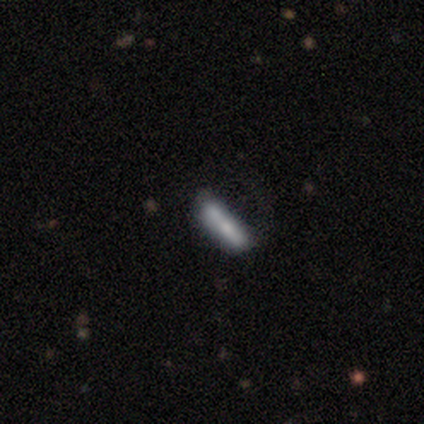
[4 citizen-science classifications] smooth-or-featured: smooth: 100% | featured or disk: 0% | star or artifact: 0%
  how-rounded: cigar-shaped: 75% | in between: 25% | round: 0%
  merging: none: 50% | minor disturbance: 25% | merger: 25% | major disturbance: 0%